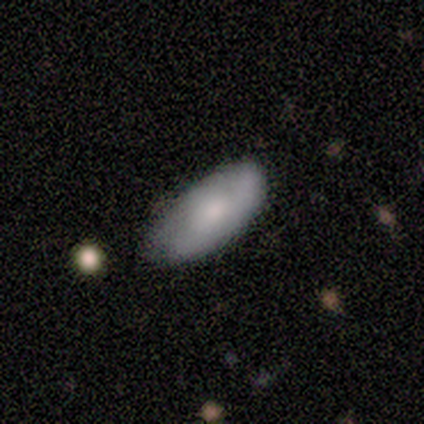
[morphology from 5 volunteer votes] Volunteers were most divided on "smooth or featured": smooth: 80%, featured or disk: 20%, star or artifact: 0%. More confident: how rounded — in between (100%); merging — none (80%).